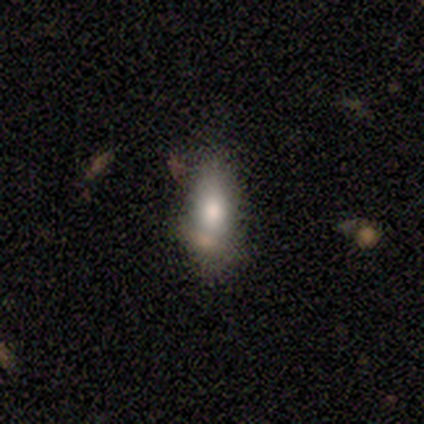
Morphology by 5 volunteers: This appears to be a smooth galaxy with no disk features (80%) that is in between round and cigar-shaped (50%, tied with cigar-shaped). Merging: none (80%).